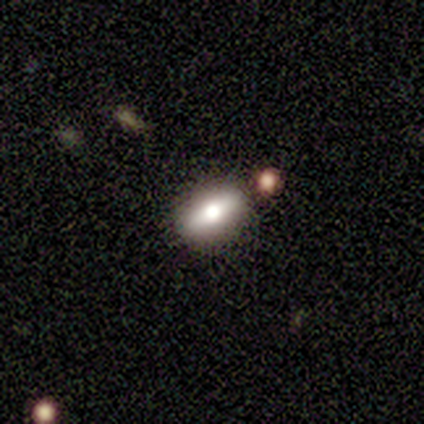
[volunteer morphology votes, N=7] Q: Smooth or featured?
A: featured or disk (57%); runner-up: smooth (29%)
Q: Edge-on disk?
A: no (75%); runner-up: yes (25%)
Q: Bar?
A: no (67%); runner-up: strong (33%)
Q: Spiral arms?
A: no (100%)
Q: Bulge size?
A: large (67%); runner-up: moderate (33%)
Q: Merging?
A: none (83%); runner-up: merger (17%)